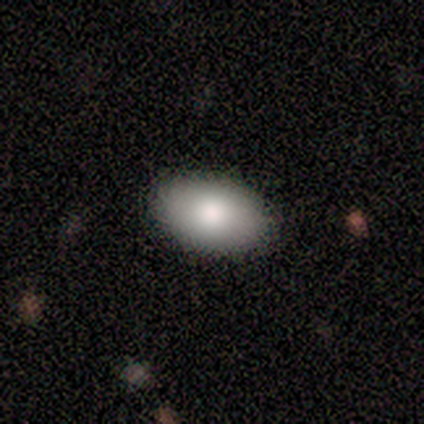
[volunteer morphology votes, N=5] Smooth or featured: smooth — 60% (featured or disk — 40%)
How rounded: in between — 100%
Merging: none — 100%